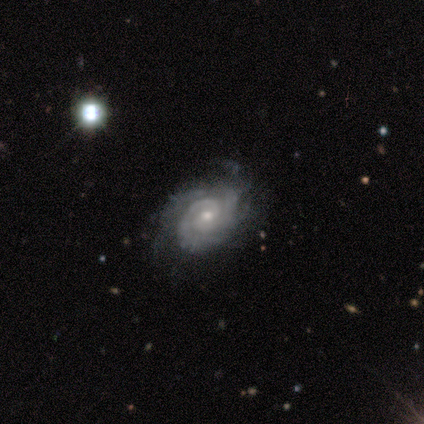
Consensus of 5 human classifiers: Volunteers were most divided on "bulge size" (2-way tie): moderate: 50%, small: 50%, dominant: 0%, large: 0%, none: 0%. More confident: edge-on disk — no (100%); bar — no (100%); spiral arms — yes (100%); spiral winding — tight (100%); smooth or featured — featured or disk (80%); merging — none (60%); spiral arm count — 2 (50%).